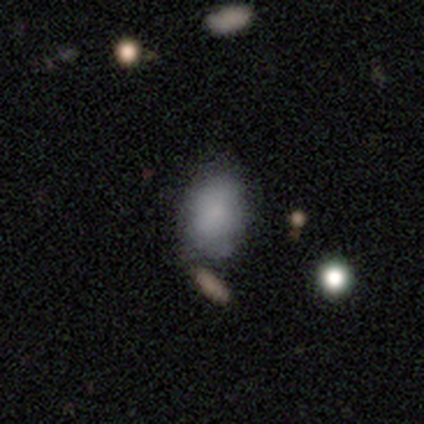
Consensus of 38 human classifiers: Morphology: type=smooth (71%); roundness=in between (89%); merging=none (40%).